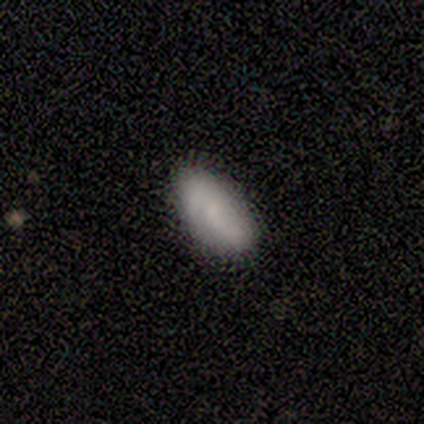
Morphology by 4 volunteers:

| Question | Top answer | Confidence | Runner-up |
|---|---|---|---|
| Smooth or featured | smooth | 75% | featured or disk (25%) |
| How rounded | in between | 100% | — |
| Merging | none | 100% | — |